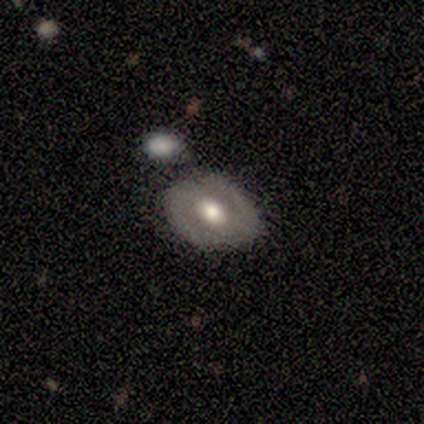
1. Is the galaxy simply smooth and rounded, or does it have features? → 60% featured or disk, 20% smooth, 20% star or artifact.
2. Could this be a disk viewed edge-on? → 100% no, 0% yes.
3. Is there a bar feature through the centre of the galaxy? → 33% strong (tied), 33% weak (tied), 33% no (tied).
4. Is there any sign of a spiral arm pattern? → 100% yes, 0% no.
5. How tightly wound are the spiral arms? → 100% tight, 0% medium, 0% loose.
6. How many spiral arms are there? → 100% 2, 0% 1, 0% 3, 0% 4, 0% more than 4, 0% can't tell.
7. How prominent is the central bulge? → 67% moderate, 33% large, 0% dominant, 0% small, 0% none.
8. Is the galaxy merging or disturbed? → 25% none (tied), 25% minor disturbance (tied), 25% major disturbance (tied), 25% merger (tied).